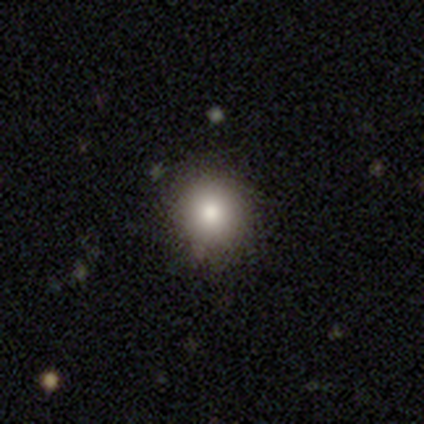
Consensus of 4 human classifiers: Q: Smooth or featured?
A: smooth (75%); runner-up: star or artifact (25%)
Q: How rounded?
A: round (67%); runner-up: in between (33%)
Q: Merging?
A: none (67%); runner-up: minor disturbance (33%)